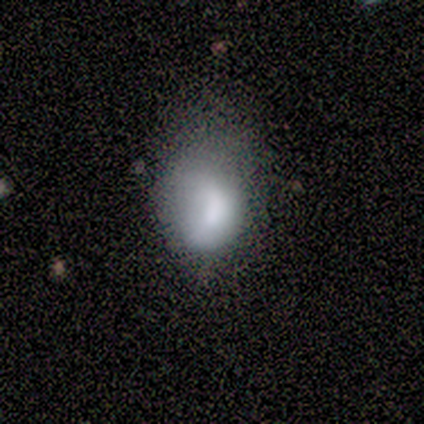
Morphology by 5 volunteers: Overall: smooth (80%). How rounded: in between (100%). Merging: none (60%; major disturbance 40%).